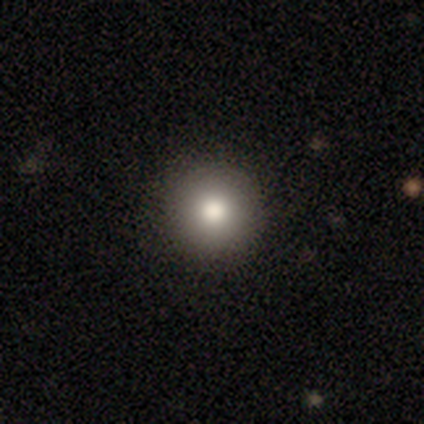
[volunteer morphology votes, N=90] A smooth galaxy with no disk features (80%) that is round (96%).

Vote fractions:
- Smooth or featured? smooth: 80% / star or artifact: 11% / featured or disk: 9%
- How rounded? round: 96% / in between: 4% / cigar-shaped: 0%
- Merging? none: 94% / minor disturbance: 4% / major disturbance: 2% / merger: 0%